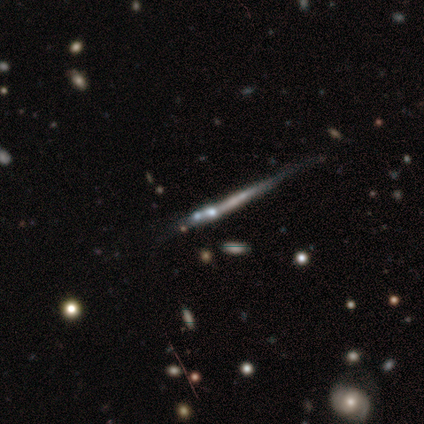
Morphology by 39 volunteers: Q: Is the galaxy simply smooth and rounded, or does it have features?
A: featured or disk — 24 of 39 (62%).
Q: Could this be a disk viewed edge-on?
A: yes — 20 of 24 (83%).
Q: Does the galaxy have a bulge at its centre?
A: none — 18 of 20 (90%).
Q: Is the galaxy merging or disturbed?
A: none — 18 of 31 (58%).